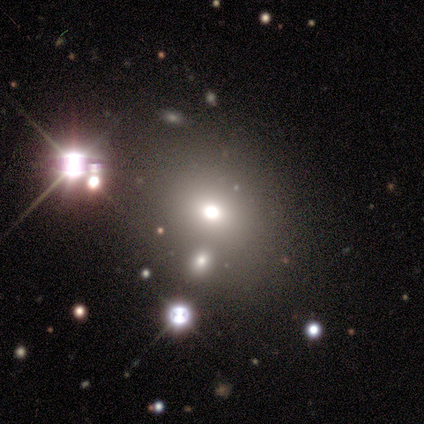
Overall: featured or disk (40%, tied with star or artifact). Edge-on disk: no (100%). Bar: no (100%). Spiral arms: no (100%). Bulge size: dominant (50%, tied with moderate). Merging: none (67%; merger 33%).